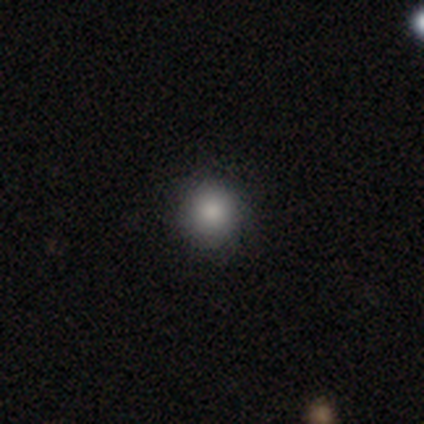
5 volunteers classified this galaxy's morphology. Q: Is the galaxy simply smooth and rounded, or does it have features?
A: smooth — 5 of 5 (100%).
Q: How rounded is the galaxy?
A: round — 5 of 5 (100%).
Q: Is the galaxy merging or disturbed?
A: none — 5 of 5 (100%).